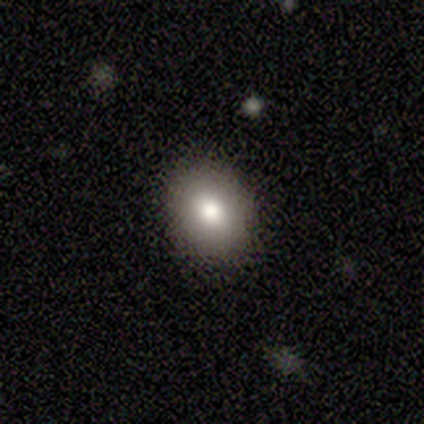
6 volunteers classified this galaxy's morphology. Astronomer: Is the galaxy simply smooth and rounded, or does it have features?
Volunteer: smooth — 83%.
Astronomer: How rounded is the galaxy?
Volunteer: in between — 60% (runner-up: round, 40%).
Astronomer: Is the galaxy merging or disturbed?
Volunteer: none — 67%.